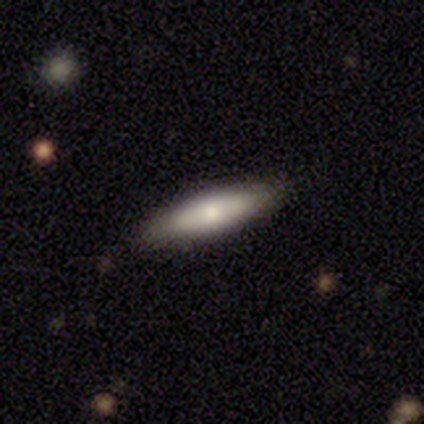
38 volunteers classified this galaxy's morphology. Q: Smooth or featured?
A: smooth (61%); runner-up: featured or disk (39%)
Q: How rounded?
A: cigar-shaped (70%); runner-up: in between (30%)
Q: Merging?
A: none (87%); runner-up: minor disturbance (13%)